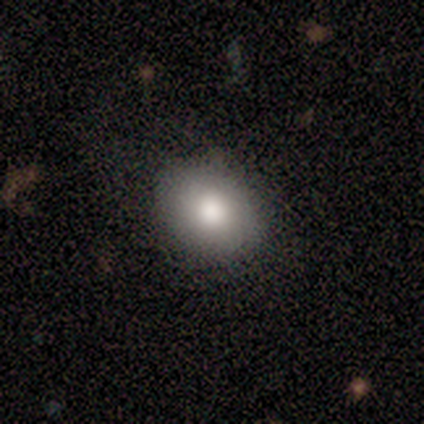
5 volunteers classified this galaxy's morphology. type=smooth (80%); roundness=in between (50%); merging=none (75%).